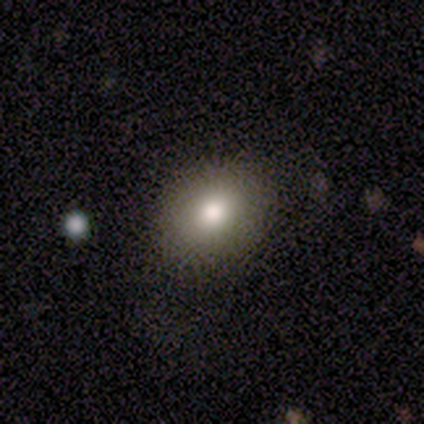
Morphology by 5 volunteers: Smooth or featured?
  - smooth: 80% *
  - featured or disk: 20%
  - star or artifact: 0%
How rounded?
  - round: 50% * (tied)
  - in between: 50% * (tied)
  - cigar-shaped: 0%
Merging?
  - none: 80% *
  - minor disturbance: 20%
  - major disturbance: 0%
  - merger: 0%